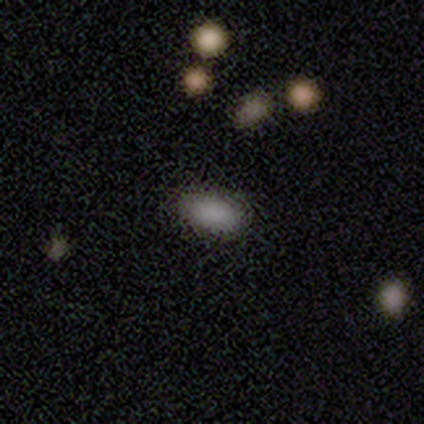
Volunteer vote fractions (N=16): This appears to be a smooth galaxy with no disk features (94%) that is in between round and cigar-shaped (80%). Merging: none (93%).